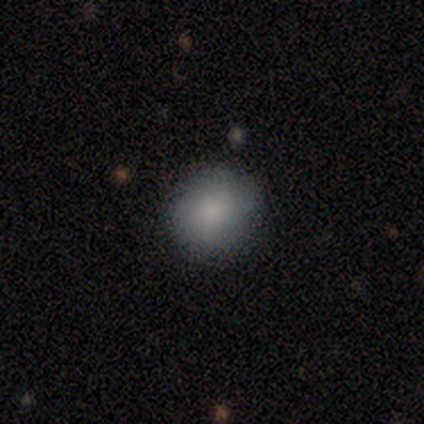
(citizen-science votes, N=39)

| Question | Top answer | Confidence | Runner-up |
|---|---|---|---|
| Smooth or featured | smooth | 72% | featured or disk (21%) |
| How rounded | round | 86% | in between (14%) |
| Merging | none | 86% | minor disturbance (14%) |